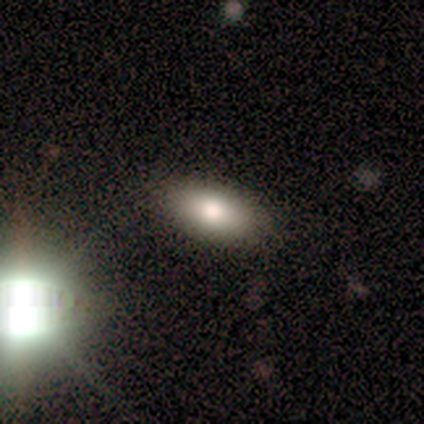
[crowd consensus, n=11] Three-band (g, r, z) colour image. It shows a smooth galaxy with no disk features (82%) that is in between round and cigar-shaped (89%). Merging: none (89%).